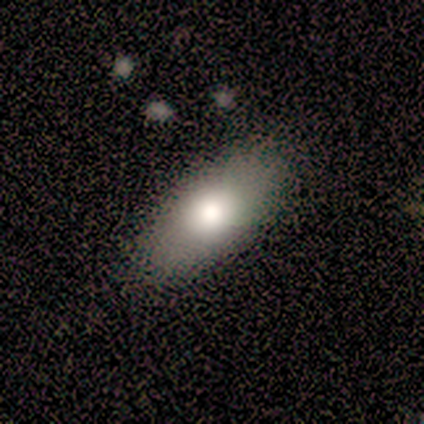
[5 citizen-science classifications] Consensus on every question: smooth or featured — smooth (100%); how rounded — in between (100%); merging — none (100%).